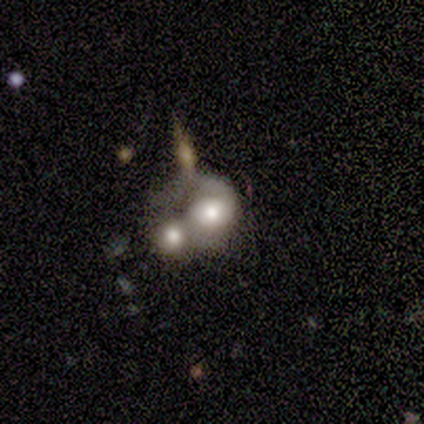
A featured or disk galaxy (61%) with no bar (76%), 2 (53%) loose (67%) spiral arms (71%) and a moderate central bulge (52%). Merging: merger (61%).